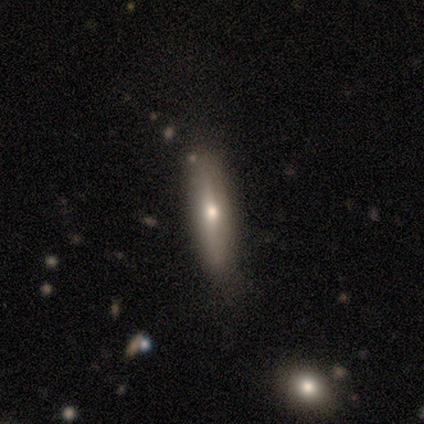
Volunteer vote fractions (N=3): featured or disk 67%, smooth 33%, star or artifact 0%. Down the decision tree: edge-on disk — yes (100%); edge-on bulge — rounded (100%); merging — none (67%).